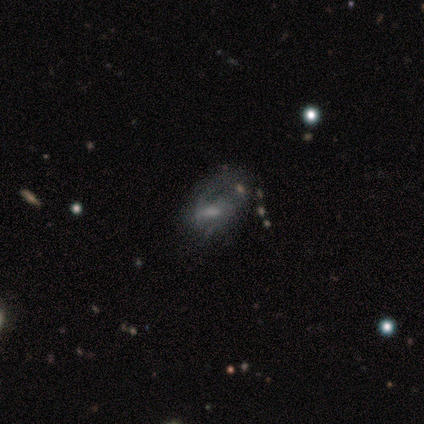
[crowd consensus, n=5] Volunteers were most divided on "bar" (2-way tie): strong: 50%, weak: 50%, no: 0%; "spiral winding" (2-way tie): medium: 50%, loose: 50%, tight: 0%; "bulge size" (2-way tie): moderate: 50%, small: 50%, dominant: 0%, large: 0%, none: 0%. More confident: spiral arms — yes (100%); spiral arm count — 2 (100%); edge-on disk — no (67%); smooth or featured — featured or disk (60%); merging — major disturbance (60%).